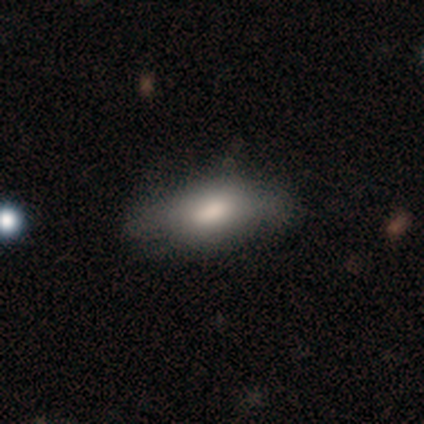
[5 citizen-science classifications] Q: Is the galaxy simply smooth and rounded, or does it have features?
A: smooth — 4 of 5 (80%).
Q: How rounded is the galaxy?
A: in between — 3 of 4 (75%).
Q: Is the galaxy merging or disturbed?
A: none — 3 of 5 (60%).